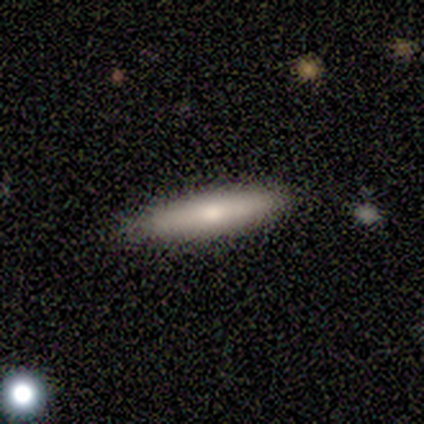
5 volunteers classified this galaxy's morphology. smooth-or-featured: smooth: 80% | featured or disk: 20% | star or artifact: 0%
  how-rounded: cigar-shaped: 100% | round: 0% | in between: 0%
  merging: none: 100% | minor disturbance: 0% | major disturbance: 0% | merger: 0%